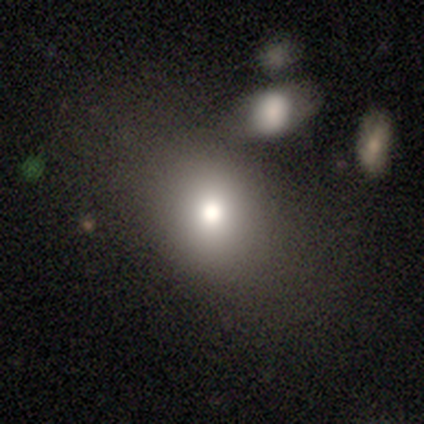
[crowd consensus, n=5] smooth 100%, featured or disk 0%, star or artifact 0%. Down the decision tree: how rounded — in between (60%); merging — none (60%).